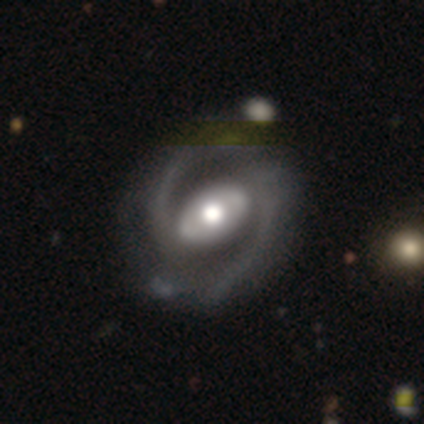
Overall: featured or disk (90%). Edge-on disk: no (99%). Bar: strong (46%; no 32%). Spiral arms: yes (96%). Spiral arm count: 2 (94%). Spiral winding: medium (60%; loose 25%). Bulge size: moderate (52%; large 42%). Merging: none (42%; merger 5%).